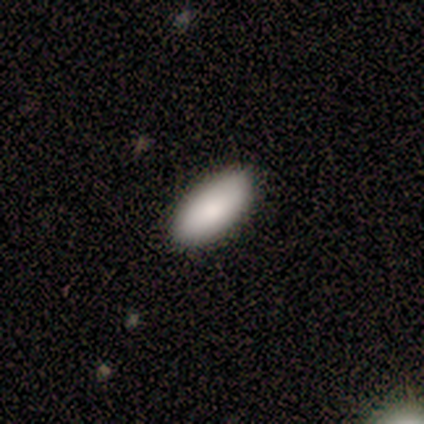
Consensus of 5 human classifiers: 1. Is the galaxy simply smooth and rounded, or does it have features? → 100% smooth, 0% featured or disk, 0% star or artifact.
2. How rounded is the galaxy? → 80% in between, 20% cigar-shaped, 0% round.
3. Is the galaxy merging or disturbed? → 80% none, 20% minor disturbance, 0% major disturbance, 0% merger.